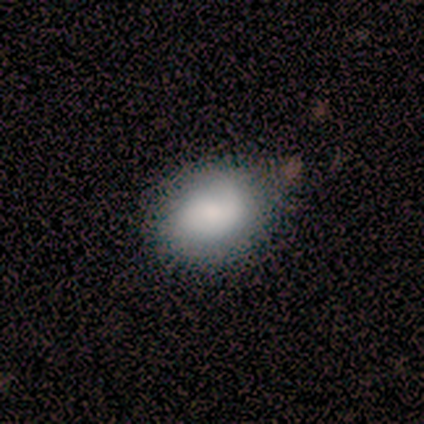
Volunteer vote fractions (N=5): Overall: smooth (80%). How rounded: round (50%, tied with in between). Merging: none (60%; minor disturbance 20%).